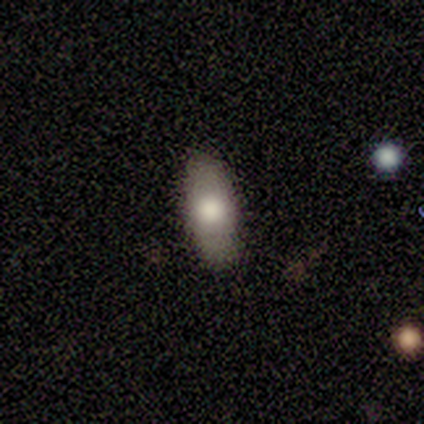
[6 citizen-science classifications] This appears to be a smooth galaxy with no disk features (67%) that is in between round and cigar-shaped (75%). Merging: none (100%).